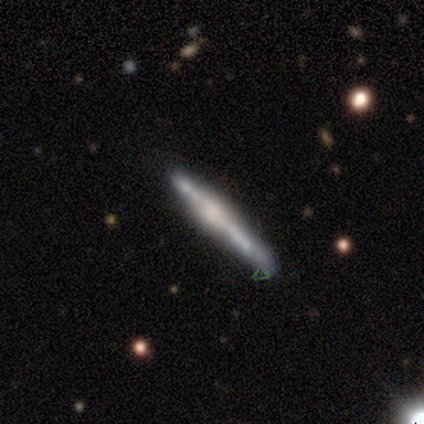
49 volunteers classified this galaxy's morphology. Overall: featured or disk (82%). Edge-on disk: yes (95%). Edge-on bulge: rounded (45%; boxy 42%). Merging: none (51%; minor disturbance 32%).